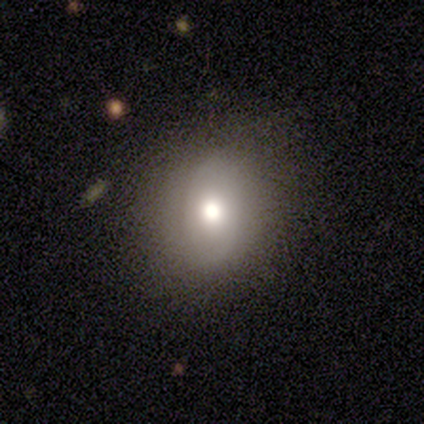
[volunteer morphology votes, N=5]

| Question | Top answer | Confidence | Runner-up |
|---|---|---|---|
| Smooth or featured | smooth | 100% | — |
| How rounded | round | 60% | in between (40%) |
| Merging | none | 80% | major disturbance (20%) |